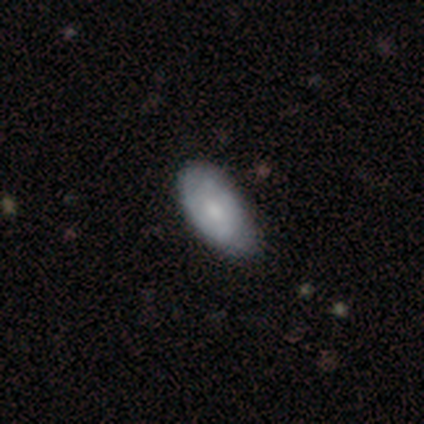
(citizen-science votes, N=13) This appears to be a smooth galaxy with no disk features (54%) that is in between round and cigar-shaped (100%). Merging: minor disturbance (67%).